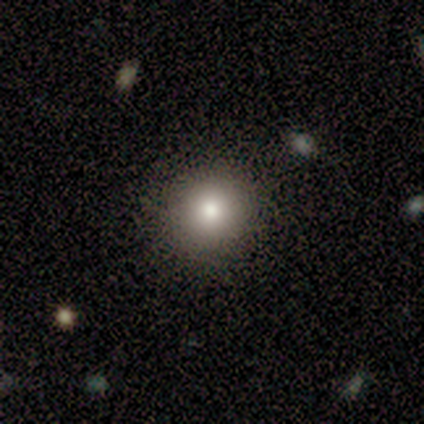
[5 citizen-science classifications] Smooth or featured?
  - smooth: 100% *
  - featured or disk: 0%
  - star or artifact: 0%
How rounded?
  - round: 100% *
  - in between: 0%
  - cigar-shaped: 0%
Merging?
  - none: 100% *
  - minor disturbance: 0%
  - major disturbance: 0%
  - merger: 0%